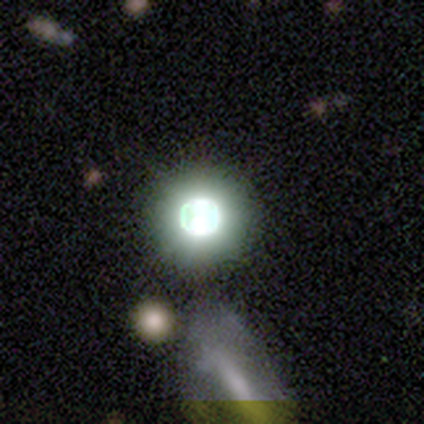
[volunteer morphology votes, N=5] star or artifact 100%, smooth 0%, featured or disk 0%.